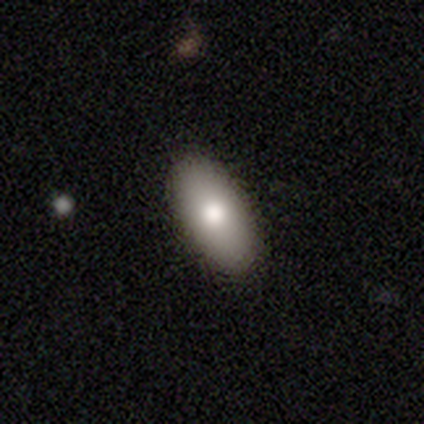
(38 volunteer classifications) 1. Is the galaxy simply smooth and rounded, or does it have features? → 79% smooth, 16% featured or disk, 5% star or artifact.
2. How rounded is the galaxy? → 93% in between, 7% cigar-shaped, 0% round.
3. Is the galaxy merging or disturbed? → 86% none, 11% minor disturbance, 3% major disturbance, 0% merger.